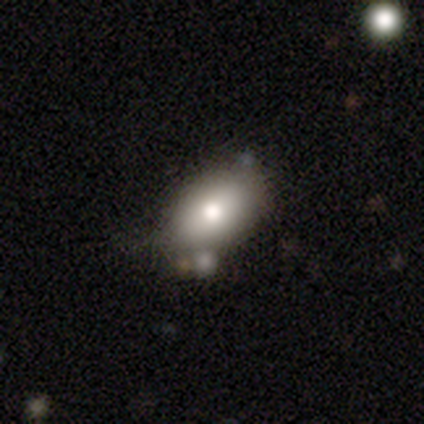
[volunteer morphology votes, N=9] type=smooth (56%); roundness=in between (100%); merging=none (86%).